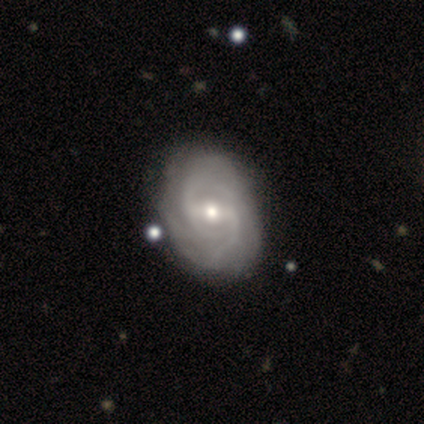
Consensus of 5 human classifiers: Smooth or featured? 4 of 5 (80%) said featured or disk. Edge-on disk? 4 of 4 (100%) said no. Bar? 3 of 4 (75%) said weak. Spiral arms? 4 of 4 (100%) said yes. Spiral winding? 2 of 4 (50%, tied with medium) said tight. Spiral arm count? 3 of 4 (75%) said 2. Bulge size? 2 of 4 (50%, tied with small) said moderate. Merging? 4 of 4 (100%) said none.